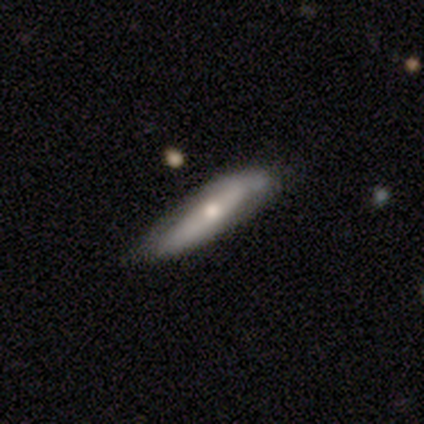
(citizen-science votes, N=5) A featured or disk galaxy (80%) viewed edge-on (75%) with a rounded central bulge (67%). Merging: none (80%).